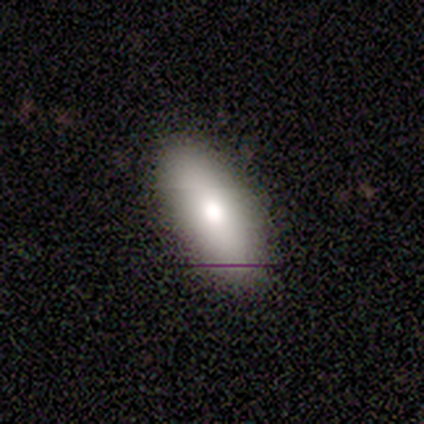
smooth_or_featured: featured or disk (p=0.50) [alt: smooth p=0.25]
disk_edge_on: no (p=1.00)
bar: no (p=1.00)
has_spiral_arms: no (p=1.00)
bulge_size: large (p=1.00)
merging: none (p=1.00)